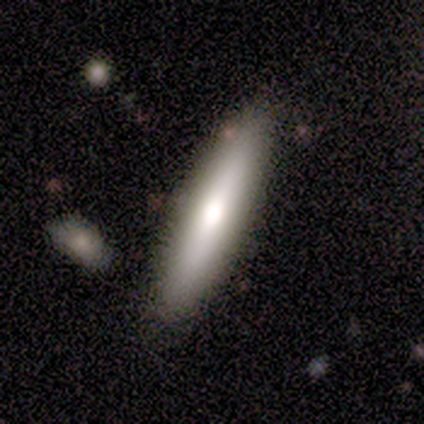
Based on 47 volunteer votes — smooth 72%, featured or disk 28%, star or artifact 0%. Down the decision tree: how rounded — cigar-shaped (74%); merging — none (87%).